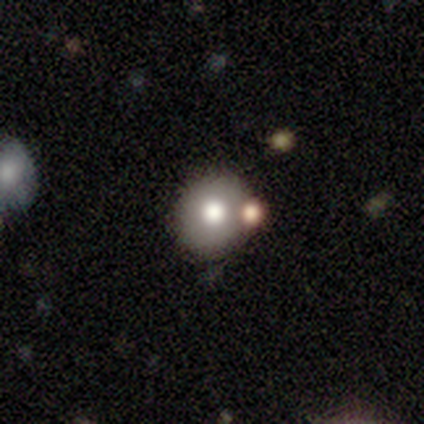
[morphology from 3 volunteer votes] This appears to be a smooth galaxy with no disk features (100%) that is round (100%). Merging: none (67%).